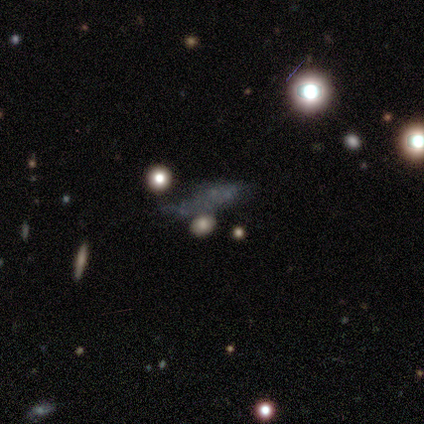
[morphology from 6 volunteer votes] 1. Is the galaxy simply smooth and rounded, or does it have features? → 33% smooth (tied), 33% featured or disk (tied), 33% star or artifact (tied).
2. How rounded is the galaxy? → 100% cigar-shaped, 0% round, 0% in between.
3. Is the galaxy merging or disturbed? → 75% none, 25% major disturbance, 0% minor disturbance, 0% merger.